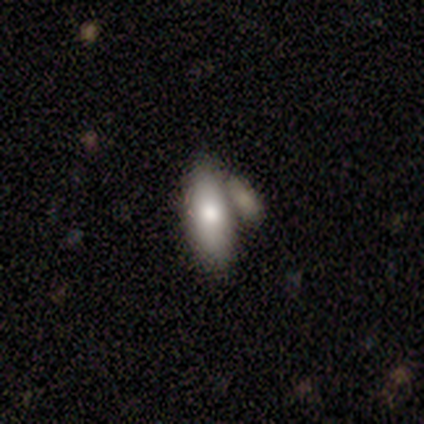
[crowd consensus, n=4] smooth 75%, star or artifact 25%, featured or disk 0%. Down the decision tree: how rounded — in between (100%); merging — minor disturbance (67%).